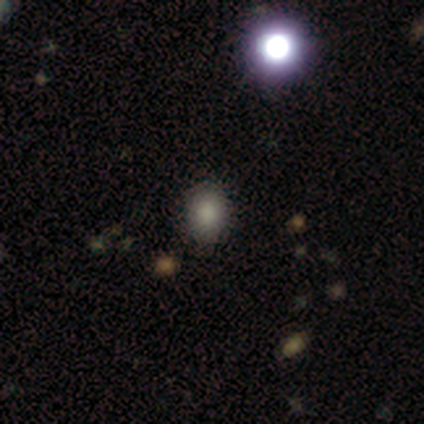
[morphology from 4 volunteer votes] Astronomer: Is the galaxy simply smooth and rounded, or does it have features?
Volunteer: smooth — 100%.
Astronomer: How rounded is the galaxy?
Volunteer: in between — 75%.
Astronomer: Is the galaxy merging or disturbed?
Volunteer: none — 75%.